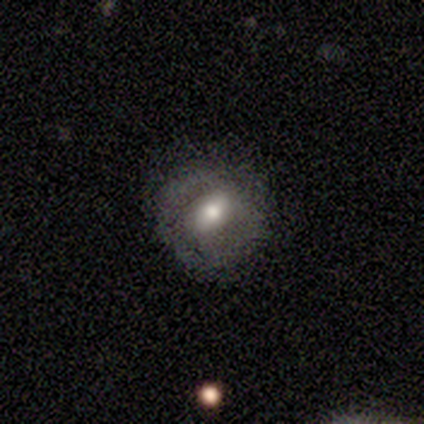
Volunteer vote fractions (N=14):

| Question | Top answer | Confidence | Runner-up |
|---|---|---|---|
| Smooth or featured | featured or disk | 50% | smooth (43%) |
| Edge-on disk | no | 86% | yes (14%) |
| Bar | weak | 67% | strong (33%) |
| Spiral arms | no | 67% | yes (33%) |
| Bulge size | moderate | 100% | — |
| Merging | none | 69% | minor disturbance (23%) |